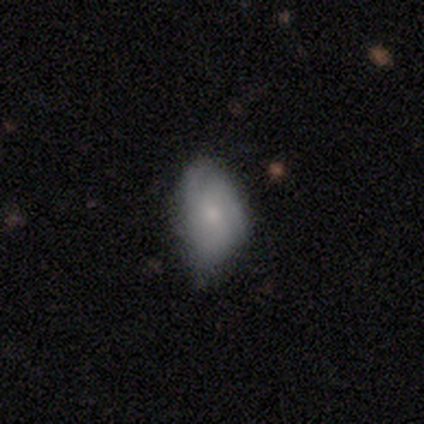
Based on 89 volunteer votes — A smooth galaxy with no disk features (51%) that is in between round and cigar-shaped (93%).

Vote fractions:
- Smooth or featured? smooth: 51% / featured or disk: 43% / star or artifact: 7%
- How rounded? in between: 93% / round: 4% / cigar-shaped: 2%
- Merging? none: 48% / minor disturbance: 42% / major disturbance: 7% / merger: 2%